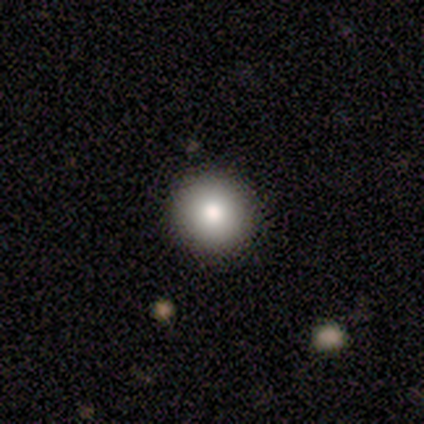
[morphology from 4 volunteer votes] Q: Smooth or featured?
A: smooth (100%)
Q: How rounded?
A: round (100%)
Q: Merging?
A: none (100%)